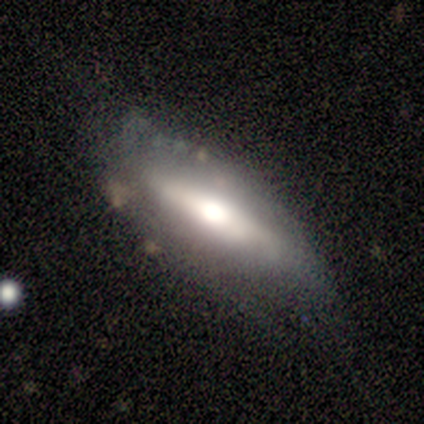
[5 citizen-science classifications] smooth 80%, featured or disk 20%, star or artifact 0%. Down the decision tree: how rounded — in between (50%, tied with cigar-shaped); merging — none (40%, tied with major disturbance).